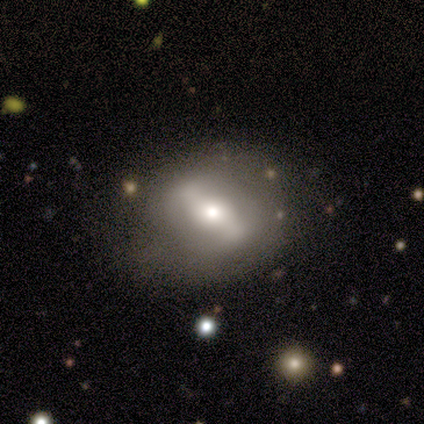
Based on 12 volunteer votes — Overall: featured or disk (92%). Edge-on disk: no (91%). Bar: strong (60%; weak 20%). Spiral arms: no (70%; yes 30%). Bulge size: moderate (70%; small 30%). Merging: none (75%).